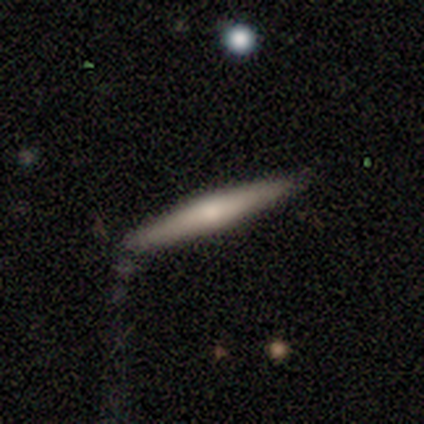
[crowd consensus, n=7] Overall: smooth (71%). How rounded: cigar-shaped (100%). Merging: none (43%; minor disturbance 29%).